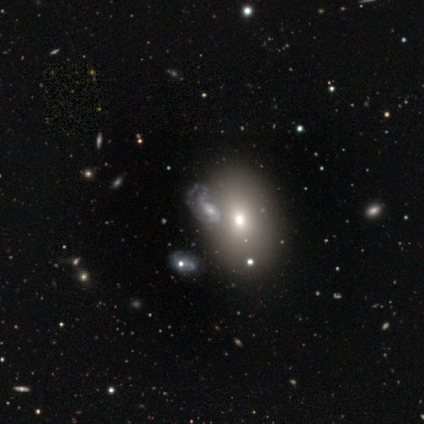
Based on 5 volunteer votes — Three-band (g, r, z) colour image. It shows a featured or disk galaxy (60%) with a strong bar (33%, tied with weak and no), 2 (33%, tied with 3 and can't tell) tight (33%, tied with medium and loose) spiral arms (100%) and a small central bulge (100%). Merging: major disturbance (60%).